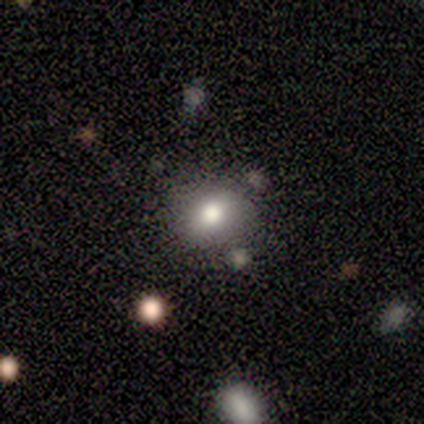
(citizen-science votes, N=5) Smooth or featured: star or artifact — 80% (smooth — 20%)